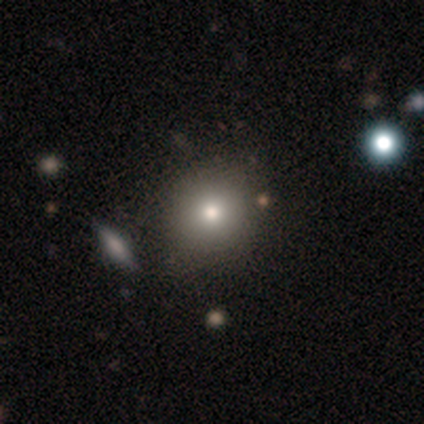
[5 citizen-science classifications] smooth 60%, star or artifact 40%, featured or disk 0%. Down the decision tree: how rounded — round (100%); merging — none (67%).